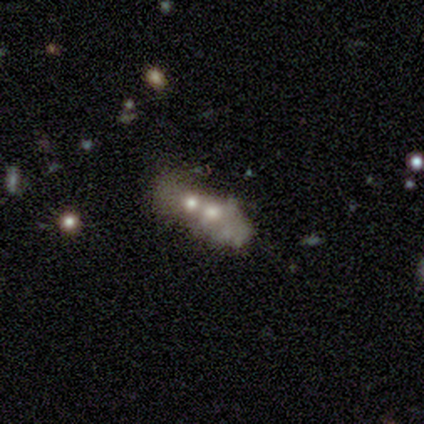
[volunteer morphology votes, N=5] Smooth or featured? 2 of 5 (40%, tied with star or artifact) said featured or disk. Edge-on disk? 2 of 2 (100%) said no. Bar? 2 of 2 (100%) said no. Spiral arms? 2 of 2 (100%) said no. Bulge size? 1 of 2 (50%, tied with moderate) said large. Merging? 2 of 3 (67%) said merger.